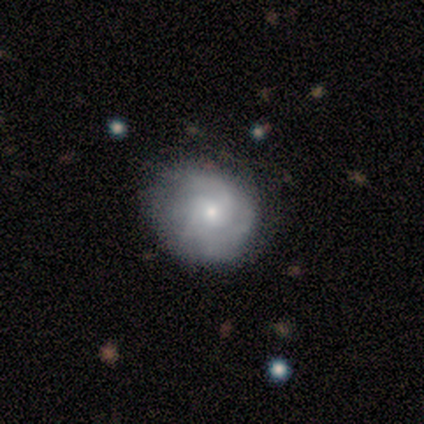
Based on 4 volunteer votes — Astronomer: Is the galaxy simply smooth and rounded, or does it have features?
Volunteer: featured or disk — 75%.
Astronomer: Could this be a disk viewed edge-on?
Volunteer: no — 100%.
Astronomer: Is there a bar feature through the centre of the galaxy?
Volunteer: no — 100%.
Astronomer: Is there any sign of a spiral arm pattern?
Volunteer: yes — 100%.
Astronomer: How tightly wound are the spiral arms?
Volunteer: loose — 67%.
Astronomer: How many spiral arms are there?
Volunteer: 1 — 33%, tied with 2 and can't tell at 33%.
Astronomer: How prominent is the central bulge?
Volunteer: moderate — 67%.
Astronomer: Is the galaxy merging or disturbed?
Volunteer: none — 67%.